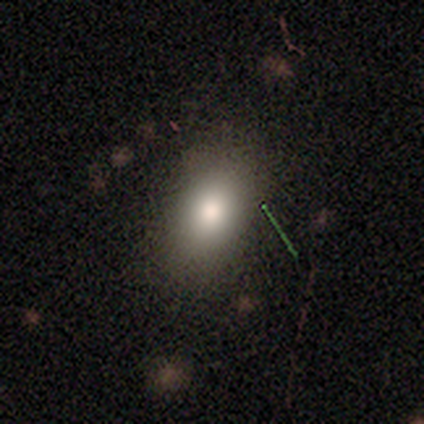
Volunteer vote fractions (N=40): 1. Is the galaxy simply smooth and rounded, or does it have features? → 88% smooth, 8% featured or disk, 5% star or artifact.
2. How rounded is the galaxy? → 91% in between, 9% round, 0% cigar-shaped.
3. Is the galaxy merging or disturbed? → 89% none, 11% minor disturbance, 0% major disturbance, 0% merger.